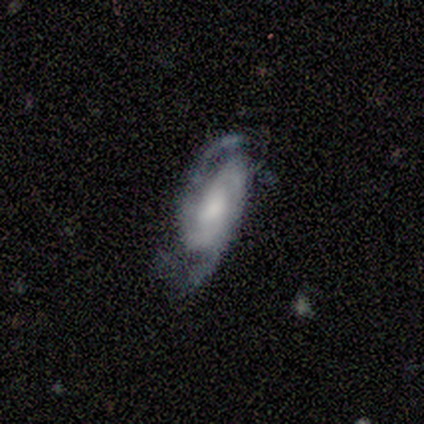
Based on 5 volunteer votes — Morphology: type=featured or disk (80%); edge-on=no (100%); bar=no (75%); spiral arms=yes (100%); winding=tight (50%, tied with medium); arm count=2 (75%); bulge=moderate (50%); merging=none (40%, tied with major disturbance).